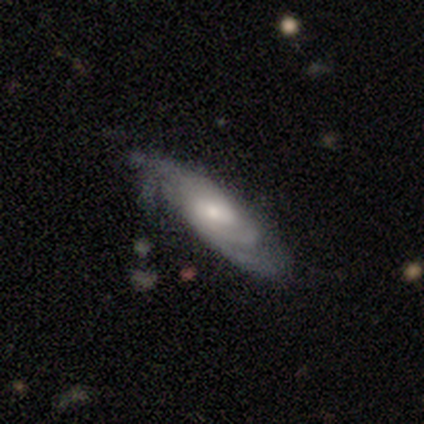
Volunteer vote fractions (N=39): A featured or disk galaxy (67%) with a weak bar (59%), medium (53%) spiral arms (86%) and a small central bulge (50%). Merging: none (58%).